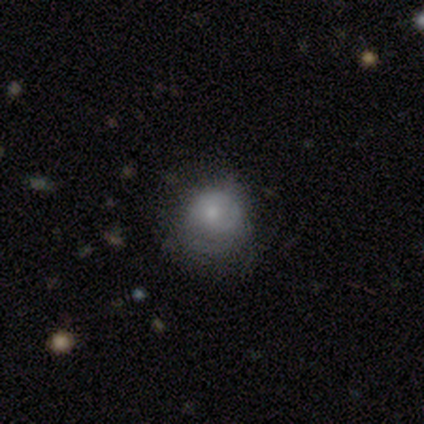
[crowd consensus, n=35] Volunteers were most divided on "smooth or featured": smooth: 54%, featured or disk: 34%, star or artifact: 11%. More confident: how rounded — round (79%); merging — none (55%).